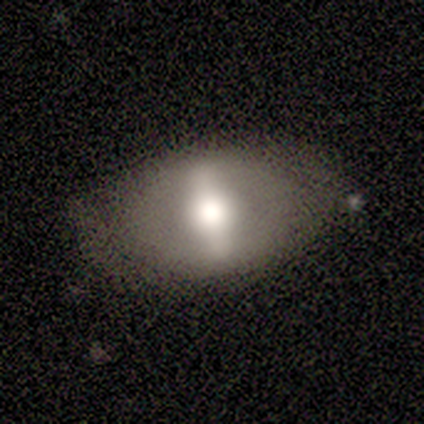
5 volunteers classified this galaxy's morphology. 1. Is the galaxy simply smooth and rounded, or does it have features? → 60% featured or disk, 20% smooth, 20% star or artifact.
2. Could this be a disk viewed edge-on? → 100% no, 0% yes.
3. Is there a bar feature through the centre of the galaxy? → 67% strong, 33% weak, 0% no.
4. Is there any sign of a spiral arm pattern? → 67% no, 33% yes.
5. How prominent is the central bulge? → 33% large (tied), 33% moderate (tied), 33% small (tied), 0% dominant, 0% none.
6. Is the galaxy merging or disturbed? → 75% none, 25% minor disturbance, 0% major disturbance, 0% merger.